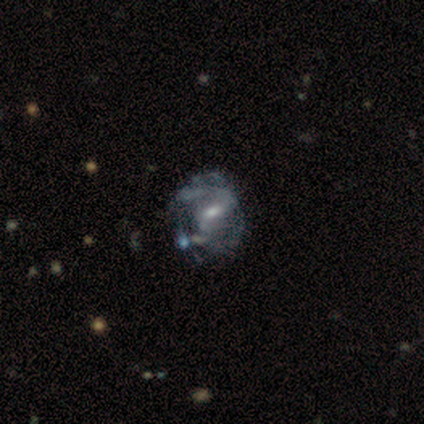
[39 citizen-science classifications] This appears to be a featured or disk galaxy (79%) with a weak bar (57%), loose (52%) spiral arms (77%) and a small central bulge (50%). Merging: minor disturbance (38%).